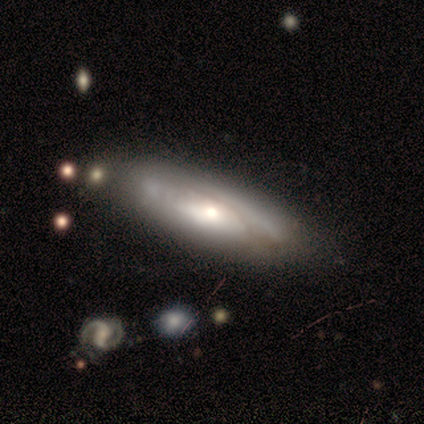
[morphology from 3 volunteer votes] smooth-or-featured: featured or disk: 67% | smooth: 33% | star or artifact: 0%
  disk-edge-on: no: 100% | yes: 0%
    bar: no: 100% | strong: 0% | weak: 0%
    has-spiral-arms: yes: 50% (tied) | no: 50% (tied)
      spiral-winding: tight: 100% | medium: 0% | loose: 0%
      spiral-arm-count: can't tell: 100% | 1: 0% | 2: 0% | 3: 0% | 4: 0% | more than 4: 0%
    bulge-size: moderate: 50% (tied) | small: 50% (tied) | dominant: 0% | large: 0% | none: 0%
  merging: minor disturbance: 100% | none: 0% | major disturbance: 0% | merger: 0%